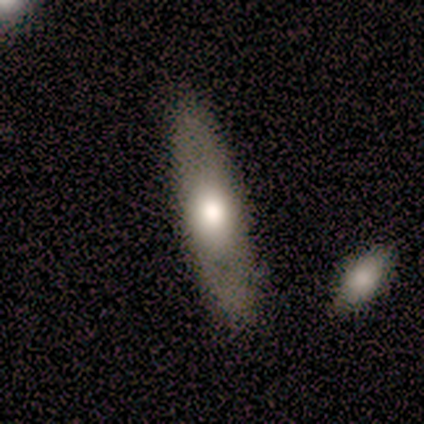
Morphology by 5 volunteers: This appears to be a smooth galaxy with no disk features (80%) that is cigar-shaped (75%). Merging: none (80%).